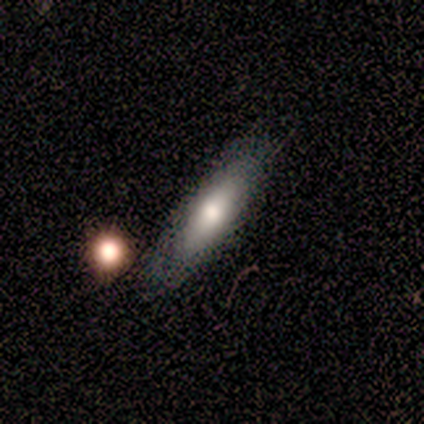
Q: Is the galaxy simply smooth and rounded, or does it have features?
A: smooth — 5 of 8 (62%).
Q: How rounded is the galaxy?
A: cigar-shaped — 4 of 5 (80%).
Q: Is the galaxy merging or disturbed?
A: none — 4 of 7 (57%).